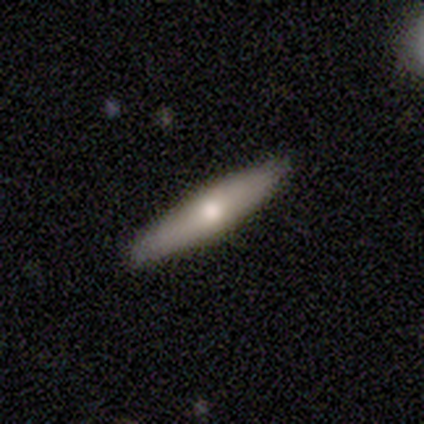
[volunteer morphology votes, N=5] Volunteers were most divided on "smooth or featured": smooth: 60%, featured or disk: 40%, star or artifact: 0%. More confident: how rounded — cigar-shaped (100%); merging — none (100%).